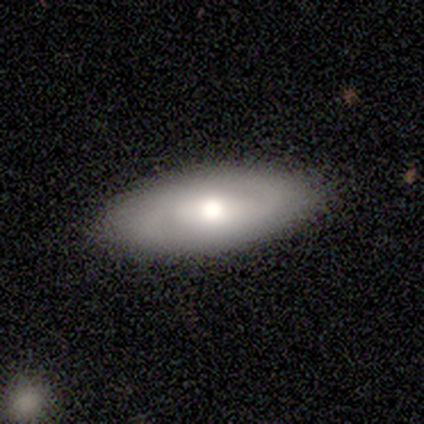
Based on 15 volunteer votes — This appears to be a smooth galaxy with no disk features (53%) that is in between round and cigar-shaped (100%). Merging: none (80%).